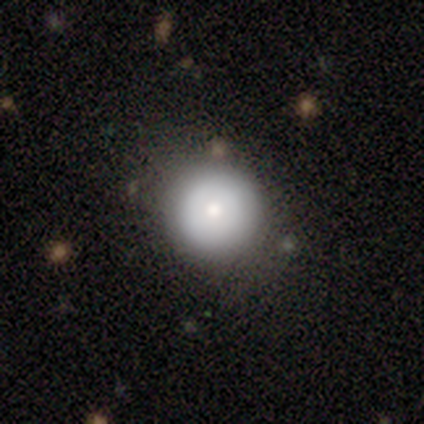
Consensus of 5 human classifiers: A smooth galaxy with no disk features (80%) that is round (100%). Merging: none (80%).